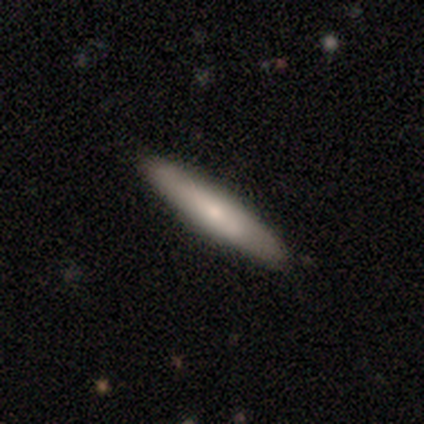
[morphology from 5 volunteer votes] Smooth or featured? smooth (100%)
How rounded? cigar-shaped (100%)
Merging? none (80%)